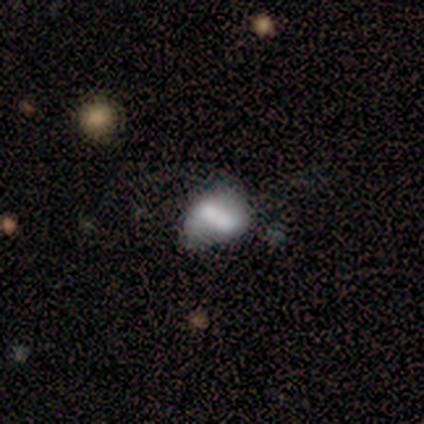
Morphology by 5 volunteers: smooth-or-featured: smooth: 80% | featured or disk: 20% | star or artifact: 0%
  how-rounded: in between: 75% | round: 25% | cigar-shaped: 0%
  merging: none: 40% (tied) | merger: 40% (tied) | minor disturbance: 20% | major disturbance: 0%